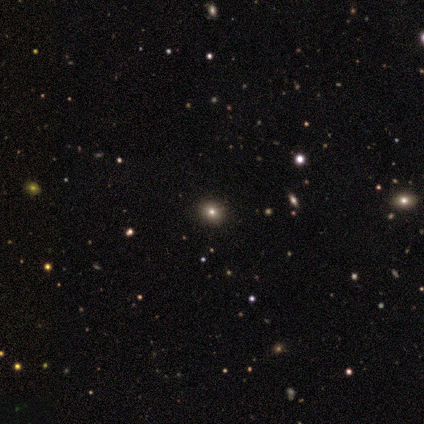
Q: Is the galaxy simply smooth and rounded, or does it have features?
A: smooth — 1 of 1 (100%).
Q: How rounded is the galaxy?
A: round — 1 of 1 (100%).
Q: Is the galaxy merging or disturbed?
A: none — 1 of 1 (100%).